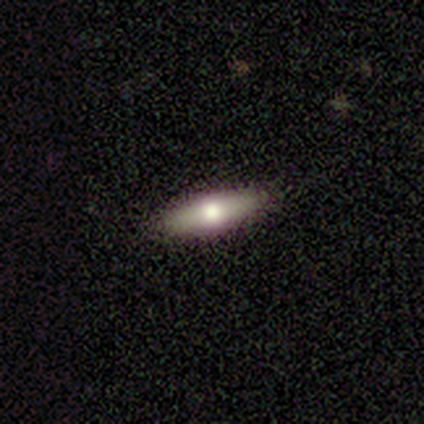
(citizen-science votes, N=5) featured or disk 60%, smooth 40%, star or artifact 0%. Down the decision tree: edge-on disk — yes (100%); edge-on bulge — rounded (100%); merging — none (80%).